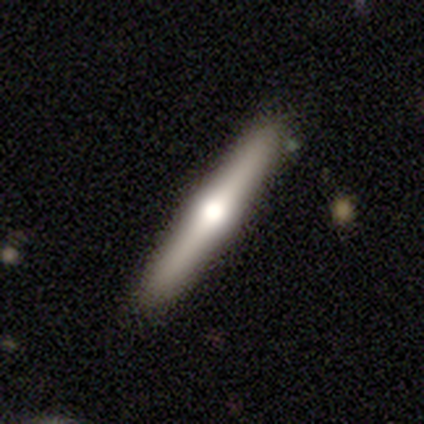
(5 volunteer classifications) Volunteers were most divided on "merging": none: 80%, merger: 20%, minor disturbance: 0%, major disturbance: 0%. More confident: smooth or featured — featured or disk (100%); edge-on disk — yes (100%); edge-on bulge — rounded (100%).